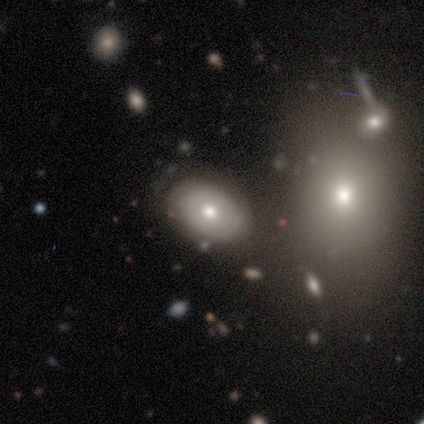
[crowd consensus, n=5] Smooth or featured? featured or disk (80%)
Edge-on disk? no (100%)
Bar? no (100%)
Spiral arms? no (75%)
Bulge size? moderate (75%)
Merging? none (100%)